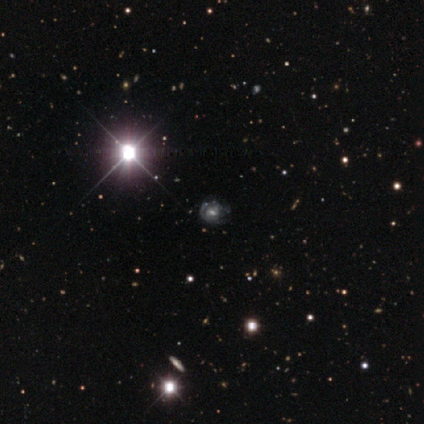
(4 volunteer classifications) Smooth or featured?
  - featured or disk: 75% *
  - star or artifact: 25%
  - smooth: 0%
Edge-on disk?
  - no: 100% *
  - yes: 0%
Bar?
  - weak: 67% *
  - strong: 33%
  - no: 0%
Spiral arms?
  - yes: 67% *
  - no: 33%
Spiral winding?
  - tight: 50% * (tied)
  - loose: 50% * (tied)
  - medium: 0%
Spiral arm count?
  - can't tell: 100% *
  - 1: 0%
  - 2: 0%
  - 3: 0%
  - 4: 0%
  - more than 4: 0%
Bulge size?
  - dominant: 33% * (tied)
  - moderate: 33% * (tied)
  - small: 33% * (tied)
  - large: 0%
  - none: 0%
Merging?
  - none: 100% *
  - minor disturbance: 0%
  - major disturbance: 0%
  - merger: 0%